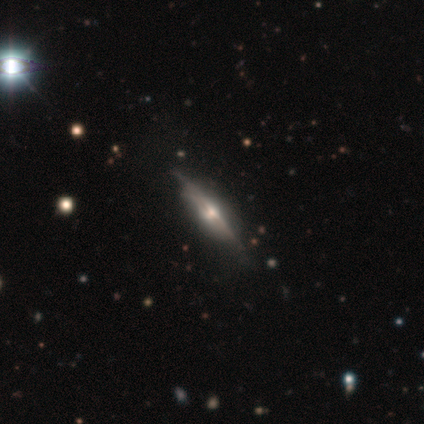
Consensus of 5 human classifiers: This is likely a featured or disk galaxy (60%). It is clearly viewed edge-on (100%). Edge-on bulge: clearly rounded (100%). Merging: possibly none (50%, tied with minor disturbance).